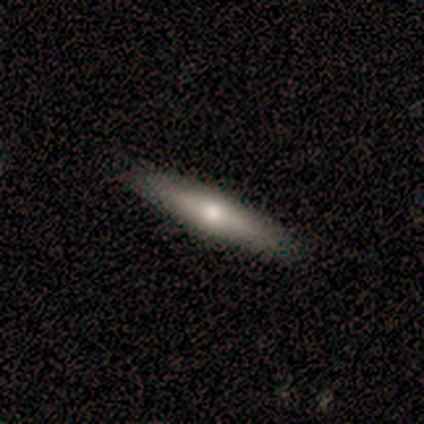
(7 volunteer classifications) Overall: smooth (57%; featured or disk 29%). How rounded: cigar-shaped (75%). Merging: none (100%).